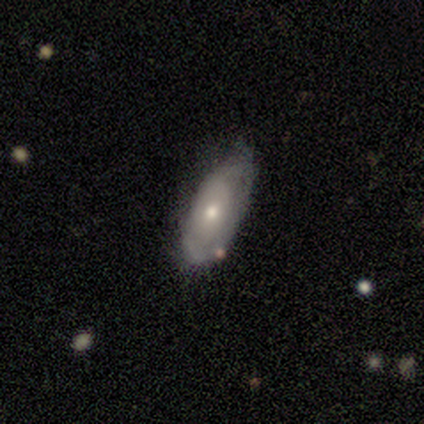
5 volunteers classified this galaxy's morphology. smooth-or-featured: featured or disk: 80% | smooth: 20% | star or artifact: 0%
  disk-edge-on: no: 75% | yes: 25%
    bar: no: 100% | strong: 0% | weak: 0%
    has-spiral-arms: no: 100% | yes: 0%
    bulge-size: small: 100% | dominant: 0% | large: 0% | moderate: 0% | none: 0%
  merging: none: 80% | minor disturbance: 20% | major disturbance: 0% | merger: 0%